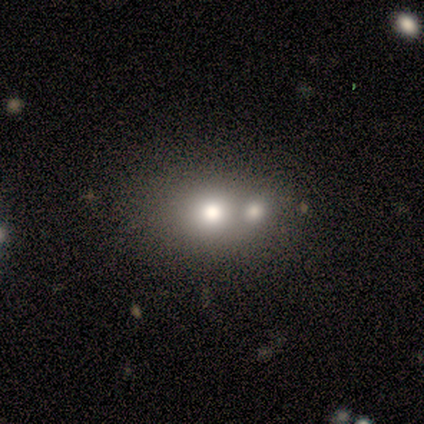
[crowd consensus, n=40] Volunteers were most divided on "how rounded": round: 54%, in between: 46%, cigar-shaped: 0%. More confident: merging — merger (79%); smooth or featured — smooth (65%).